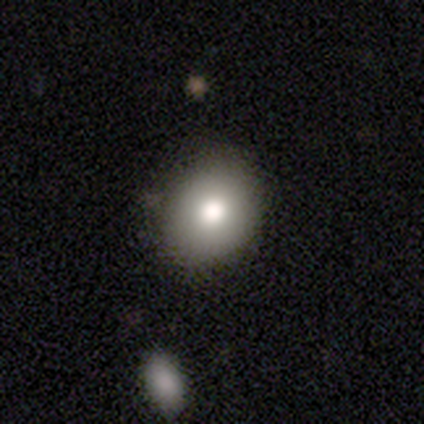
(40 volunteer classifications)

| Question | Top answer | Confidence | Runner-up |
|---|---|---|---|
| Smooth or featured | smooth | 70% | star or artifact (18%) |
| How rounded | in between | 57% | round (43%) |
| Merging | none | 79% | minor disturbance (15%) |